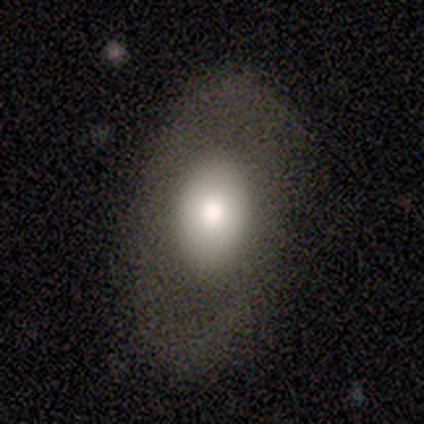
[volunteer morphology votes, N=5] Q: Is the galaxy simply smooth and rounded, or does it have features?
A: smooth — 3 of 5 (60%).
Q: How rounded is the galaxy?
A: in between — 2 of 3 (67%).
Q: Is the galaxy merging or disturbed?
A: none — 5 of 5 (100%).